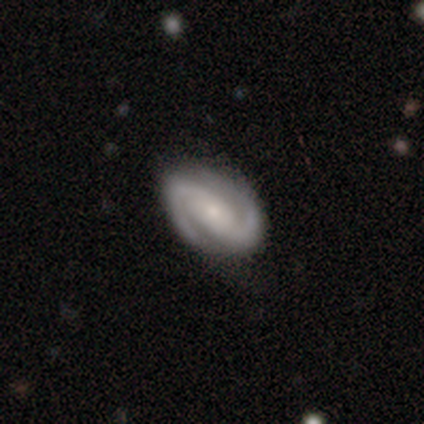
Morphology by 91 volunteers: Smooth or featured?
  - featured or disk: 91% *
  - smooth: 8%
  - star or artifact: 1%
Edge-on disk?
  - no: 94% *
  - yes: 6%
Bar?
  - strong: 41% *
  - no: 33%
  - weak: 26%
Spiral arms?
  - yes: 99% *
  - no: 1%
Spiral winding?
  - medium: 45% *
  - tight: 40%
  - loose: 14%
Spiral arm count?
  - 2: 96% *
  - can't tell: 3%
  - 3: 1%
  - 1: 0%
  - 4: 0%
  - more than 4: 0%
Bulge size?
  - small: 63% *
  - moderate: 28%
  - large: 4%
  - none: 4%
  - dominant: 1%
Merging?
  - none: 89% *
  - minor disturbance: 10%
  - major disturbance: 1%
  - merger: 0%